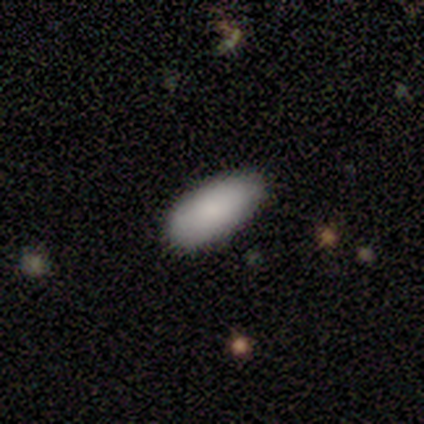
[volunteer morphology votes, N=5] Volunteers were most divided on "merging": none: 80%, minor disturbance: 20%, major disturbance: 0%, merger: 0%. More confident: smooth or featured — smooth (100%); how rounded — in between (100%).